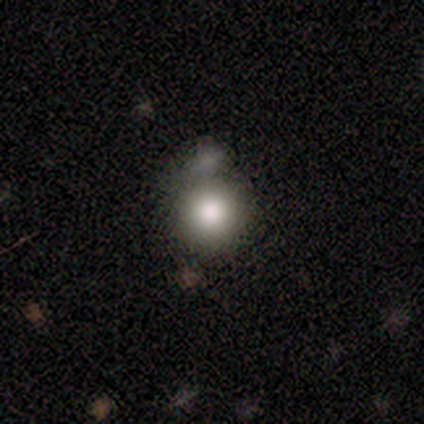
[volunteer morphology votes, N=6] Volunteers were most divided on "smooth or featured": smooth: 67%, star or artifact: 33%, featured or disk: 0%. More confident: how rounded — round (100%); merging — minor disturbance (75%).